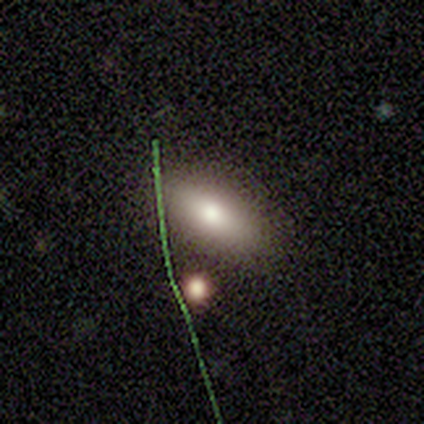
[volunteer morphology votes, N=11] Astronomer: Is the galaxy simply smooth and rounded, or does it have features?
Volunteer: smooth — 64%.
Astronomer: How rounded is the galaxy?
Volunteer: in between — 71%.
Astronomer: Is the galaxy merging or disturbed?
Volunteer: none — 80%.